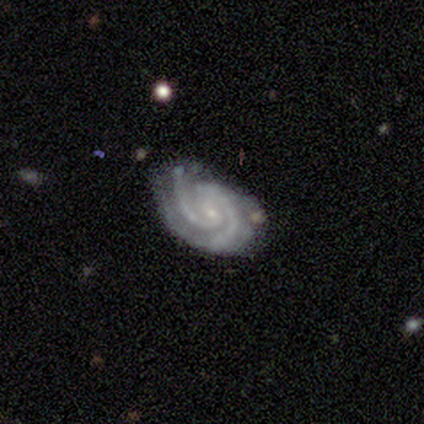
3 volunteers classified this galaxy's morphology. This is clearly a featured or disk galaxy (100%). It is clearly not viewed edge-on (100%). Bar: clearly no (100%). Spiral arm pattern: clearly yes (100%). Spiral arm count: likely 2 (67%). Spiral winding: clearly tight (100%). Central bulge: clearly small (100%). Merging: likely none (67%).